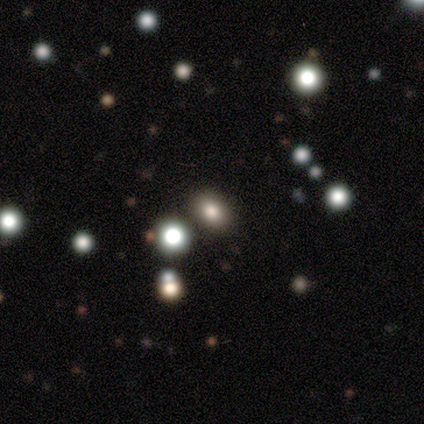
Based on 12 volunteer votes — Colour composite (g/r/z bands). It shows a smooth galaxy with no disk features (58%) that is in between round and cigar-shaped (71%). Merging: none (91%).